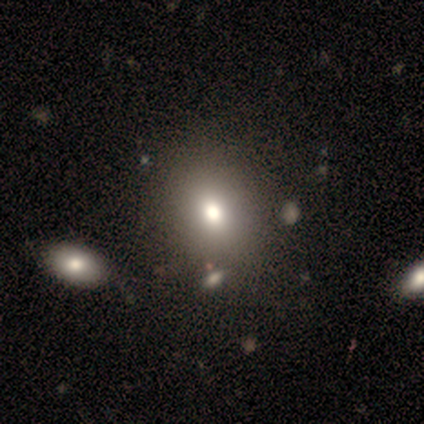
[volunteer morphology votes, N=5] smooth_or_featured: smooth (p=0.80) [alt: featured or disk p=0.20]
how_rounded: round (p=1.00)
merging: none (p=0.80) [alt: merger p=0.20]